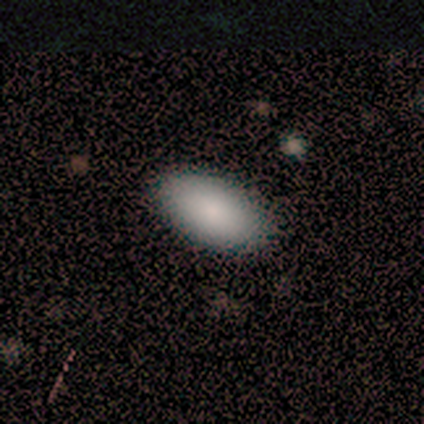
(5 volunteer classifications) Q: Smooth or featured?
A: smooth (80%); runner-up: featured or disk (20%)
Q: How rounded?
A: in between (100%)
Q: Merging?
A: none (80%); runner-up: minor disturbance (20%)